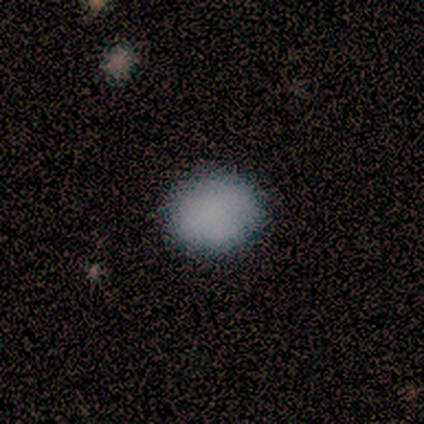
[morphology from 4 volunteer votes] A smooth galaxy with no disk features (100%) that is round (50%, tied with in between).

Vote fractions:
- Smooth or featured? smooth: 100% / featured or disk: 0% / star or artifact: 0%
- How rounded? round: 50% (tied) / in between: 50% (tied) / cigar-shaped: 0%
- Merging? none: 100% / minor disturbance: 0% / major disturbance: 0% / merger: 0%